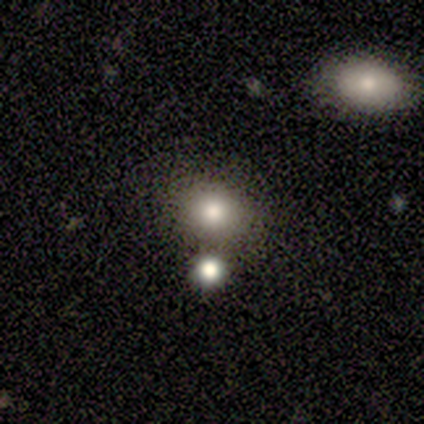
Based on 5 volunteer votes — smooth_or_featured: smooth (p=1.00)
how_rounded: round (p=0.60) [alt: in between p=0.40]
merging: none (p=0.60) [alt: merger p=0.40]